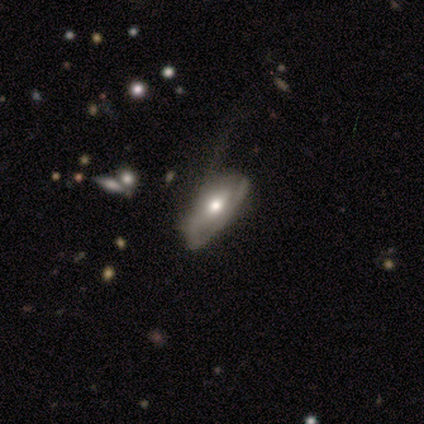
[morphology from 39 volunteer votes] Volunteers were most divided on "spiral winding" (2-way tie): tight: 40%, loose: 40%, medium: 20%. Remaining: edge-on disk — no (86%); bar — no (78%); bulge size — moderate (67%); spiral arms — yes (56%); smooth or featured — featured or disk (54%); spiral arm count — 2 (50%); merging — minor disturbance (38%).